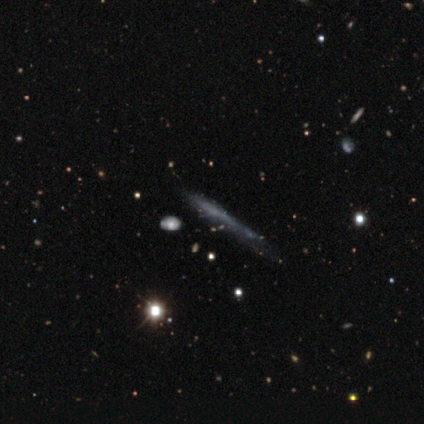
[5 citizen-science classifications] Smooth or featured? smooth (60%)
How rounded? cigar-shaped (100%)
Merging? none (60%)